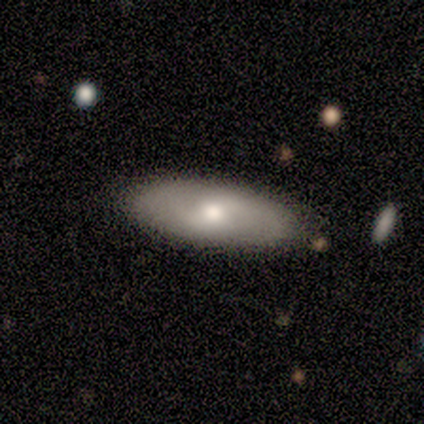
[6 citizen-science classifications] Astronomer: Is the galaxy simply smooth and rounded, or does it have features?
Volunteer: smooth — 67%.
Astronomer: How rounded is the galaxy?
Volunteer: in between — 75%.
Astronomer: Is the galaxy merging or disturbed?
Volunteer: none — 83%.